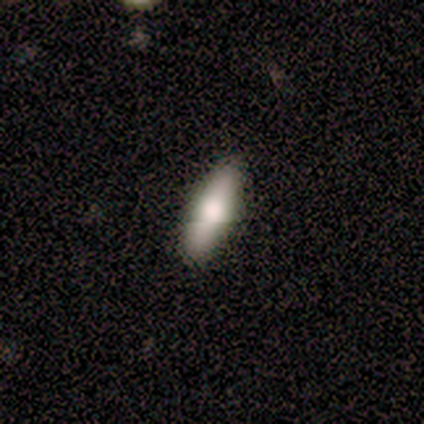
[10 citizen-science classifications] Smooth or featured? smooth (100%)
How rounded? cigar-shaped (70%)
Merging? none (90%)